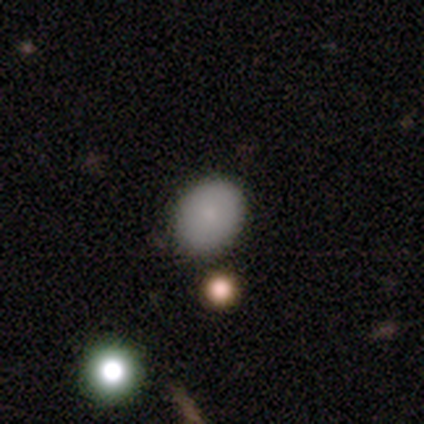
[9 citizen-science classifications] smooth_or_featured: smooth (p=0.89) [alt: featured or disk p=0.11]
how_rounded: in between (p=1.00)
merging: none (p=0.78) [alt: minor disturbance p=0.22]